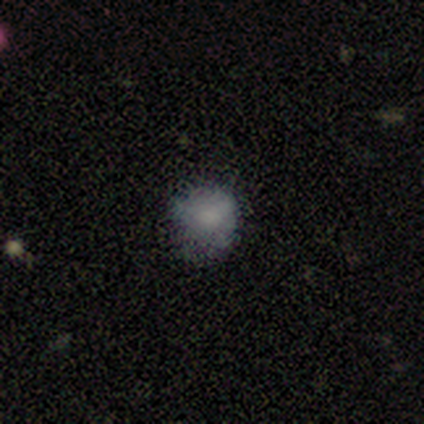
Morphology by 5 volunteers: smooth 60%, featured or disk 20%, star or artifact 20%. Down the decision tree: how rounded — round (100%); merging — none (75%).